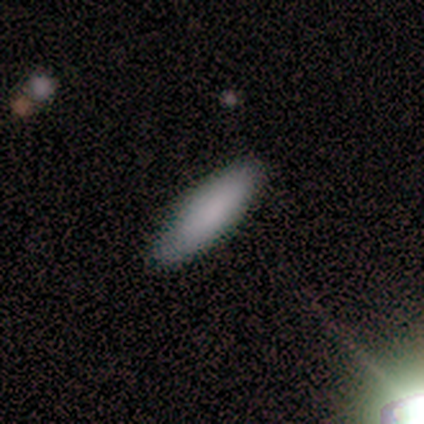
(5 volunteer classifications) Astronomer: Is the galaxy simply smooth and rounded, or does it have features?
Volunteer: smooth — 100%.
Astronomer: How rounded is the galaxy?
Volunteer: in between — 60% (runner-up: cigar-shaped, 40%).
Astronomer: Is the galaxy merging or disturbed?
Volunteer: none — 100%.